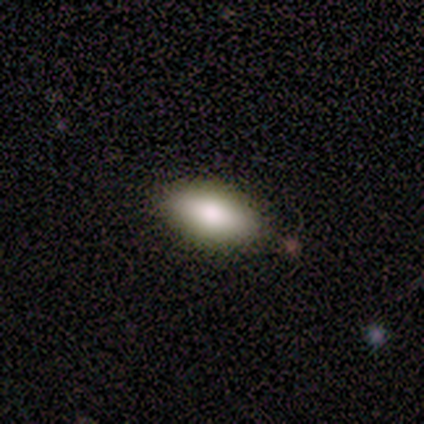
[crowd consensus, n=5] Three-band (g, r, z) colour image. It shows a smooth galaxy with no disk features (80%) that is in between round and cigar-shaped (100%). Merging: none (100%).